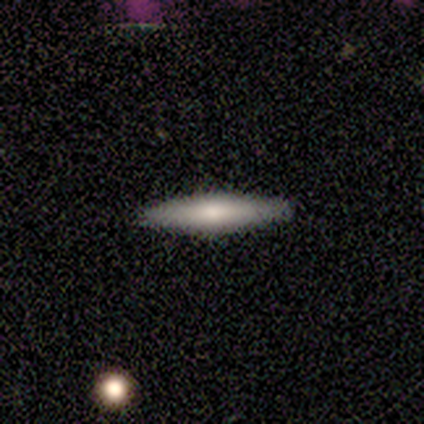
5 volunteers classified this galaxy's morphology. Smooth or featured? 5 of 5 (100%) said smooth. How rounded? 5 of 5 (100%) said cigar-shaped. Merging? 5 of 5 (100%) said none.